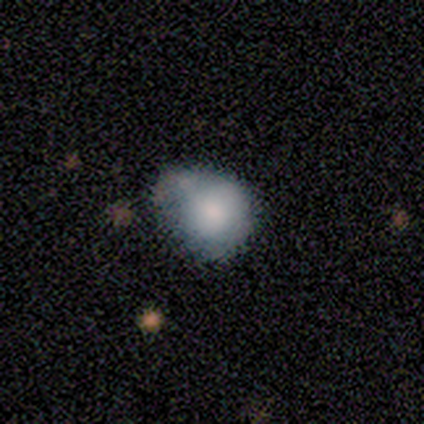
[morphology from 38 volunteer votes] A smooth galaxy with no disk features (74%) that is round (61%). Merging: none (34%).